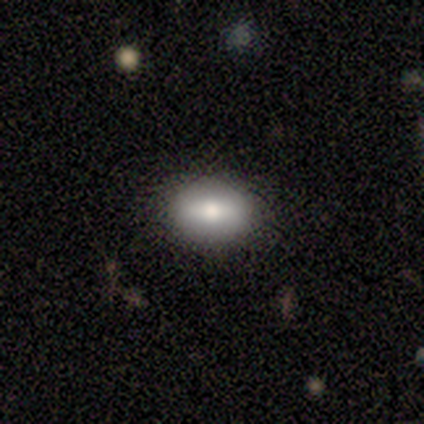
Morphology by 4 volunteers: This appears to be a smooth galaxy with no disk features (50%) that is round (50%, tied with in between). Merging: none (100%).